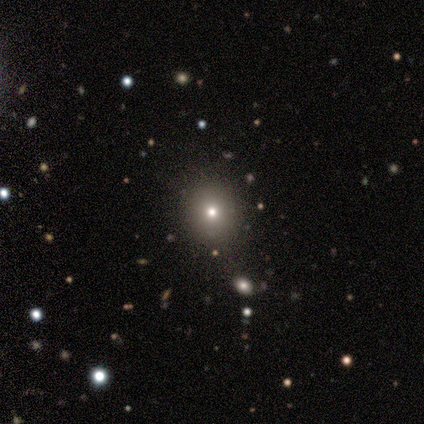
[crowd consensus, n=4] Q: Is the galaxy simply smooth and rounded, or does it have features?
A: smooth — 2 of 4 (50%).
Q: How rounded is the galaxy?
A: round — 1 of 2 (50%, tied with in between).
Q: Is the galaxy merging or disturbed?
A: none — 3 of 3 (100%).